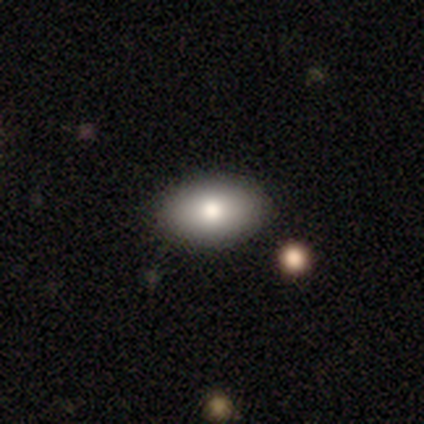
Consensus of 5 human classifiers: Volunteers were most divided on "merging": none: 60%, minor disturbance: 40%, major disturbance: 0%, merger: 0%. More confident: how rounded — in between (100%); smooth or featured — smooth (80%).